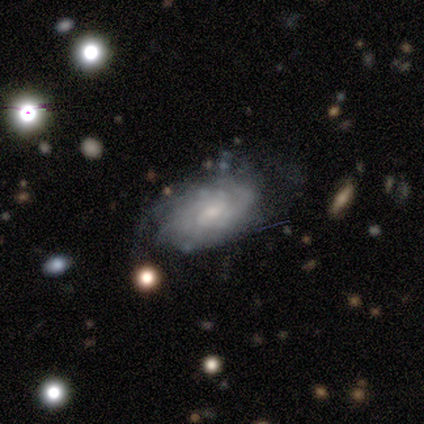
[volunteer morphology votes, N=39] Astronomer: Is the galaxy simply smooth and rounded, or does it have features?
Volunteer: featured or disk — 69%.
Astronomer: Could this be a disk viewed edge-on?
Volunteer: no — 96%.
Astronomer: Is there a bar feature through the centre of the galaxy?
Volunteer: no — 58%.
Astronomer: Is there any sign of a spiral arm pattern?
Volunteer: yes — 92%.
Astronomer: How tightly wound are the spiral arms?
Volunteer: tight — 62%.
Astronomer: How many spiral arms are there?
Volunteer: can't tell — 62%.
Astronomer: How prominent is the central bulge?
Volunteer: small — 65%.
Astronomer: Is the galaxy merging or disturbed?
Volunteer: none — 77%.